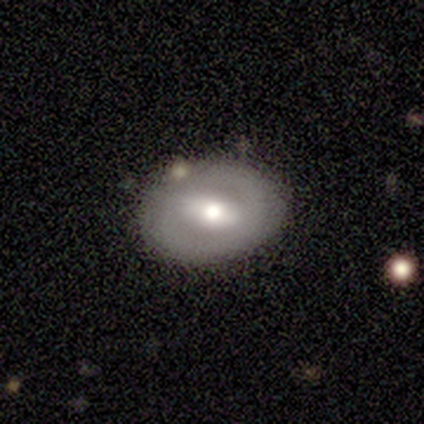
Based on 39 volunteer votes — Volunteers were most divided on "spiral winding": tight: 50%, medium: 42%, loose: 8%. More confident: edge-on disk — no (100%); merging — none (77%); bulge size — moderate (68%); spiral arm count — 2 (67%); bar — strong (59%); smooth or featured — featured or disk (56%); spiral arms — yes (55%).